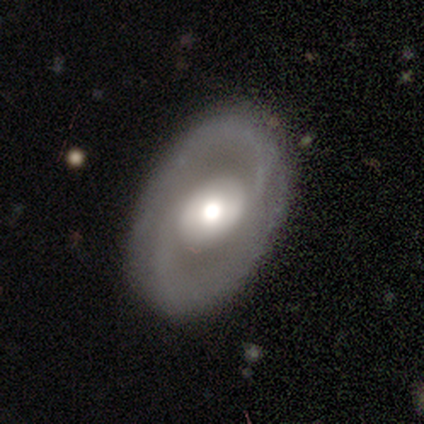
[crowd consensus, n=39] A featured or disk galaxy (77%) with no bar (63%), 2 (92%) loose (46%) spiral arms (87%) and a moderate central bulge (67%). Merging: none (85%).